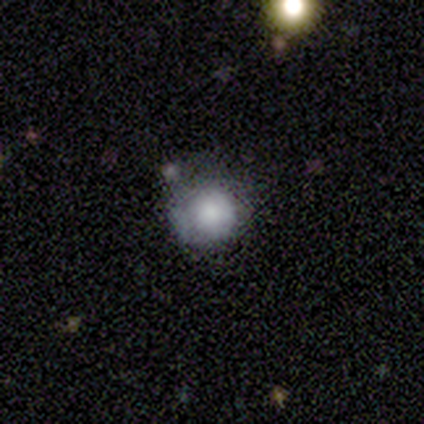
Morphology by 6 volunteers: smooth-or-featured: smooth: 100% | featured or disk: 0% | star or artifact: 0%
  how-rounded: round: 100% | in between: 0% | cigar-shaped: 0%
  merging: none: 83% | minor disturbance: 17% | major disturbance: 0% | merger: 0%